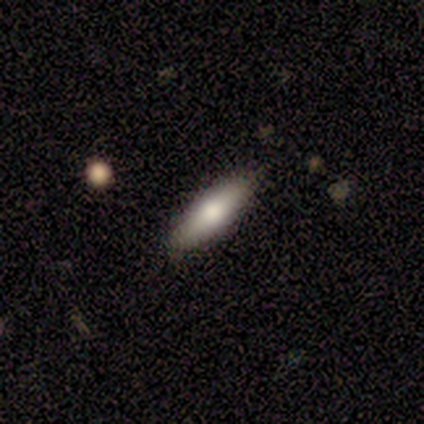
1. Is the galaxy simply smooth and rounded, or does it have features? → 67% smooth, 33% featured or disk, 0% star or artifact.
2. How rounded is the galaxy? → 50% in between (tied), 50% cigar-shaped (tied), 0% round.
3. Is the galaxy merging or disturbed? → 83% none, 17% minor disturbance, 0% major disturbance, 0% merger.